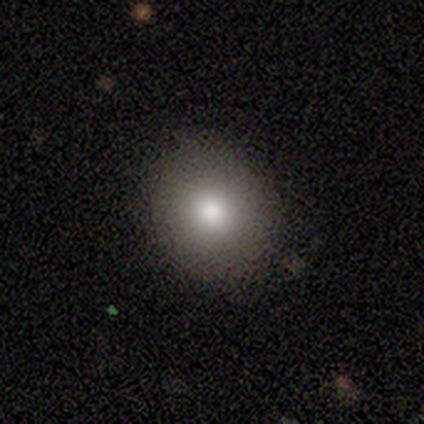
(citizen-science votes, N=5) Overall: smooth (80%). How rounded: round (75%). Merging: none (80%).